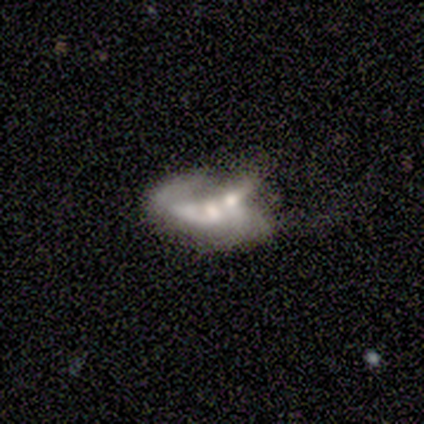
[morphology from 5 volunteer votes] Smooth or featured? featured or disk (40%, tied with star or artifact)
Edge-on disk? no (100%)
Bar? strong (50%, tied with no)
Spiral arms? yes (100%)
Spiral winding? loose (100%)
Spiral arm count? 2 (100%)
Bulge size? moderate (50%, tied with none)
Merging? merger (67%)